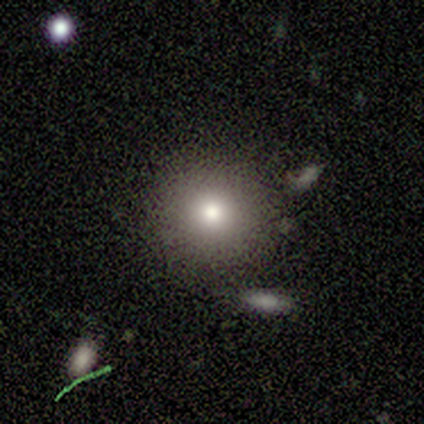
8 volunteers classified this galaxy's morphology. type=smooth (100%); roundness=round (100%); merging=none (88%).